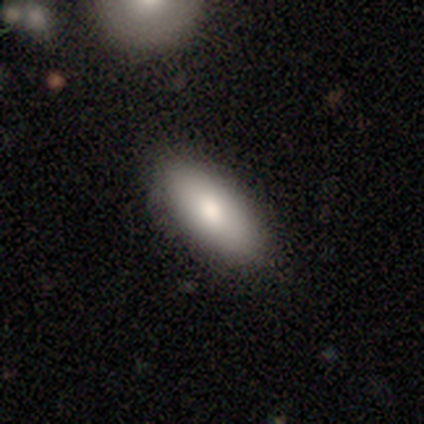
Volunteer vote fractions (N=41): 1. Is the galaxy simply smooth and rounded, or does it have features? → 78% smooth, 17% featured or disk, 5% star or artifact.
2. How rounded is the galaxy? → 84% in between, 16% cigar-shaped, 0% round.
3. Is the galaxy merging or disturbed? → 82% none, 13% minor disturbance, 3% major disturbance, 3% merger.